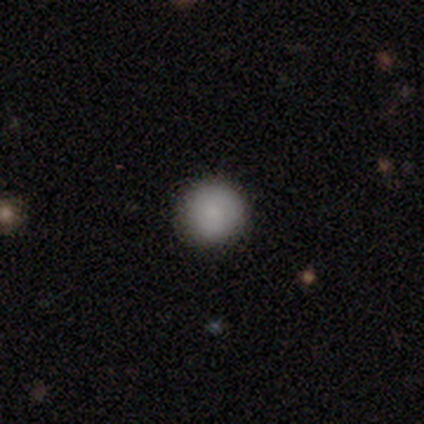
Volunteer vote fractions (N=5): This is likely a smooth galaxy (60%). How rounded: likely round (67%). Merging: clearly none (100%).